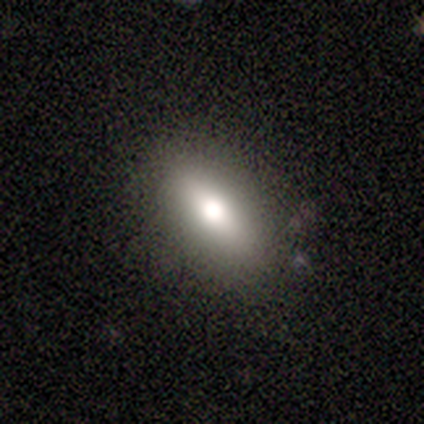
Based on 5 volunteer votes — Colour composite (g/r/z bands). It shows a smooth galaxy with no disk features (60%) that is cigar-shaped (67%). Merging: none (80%).